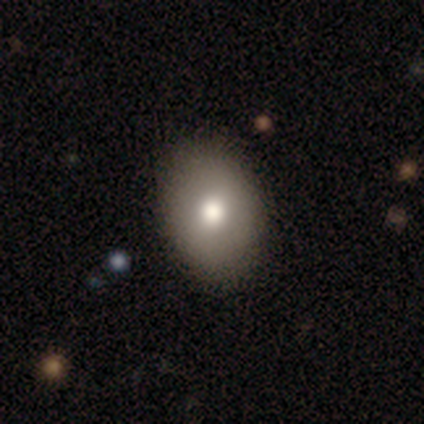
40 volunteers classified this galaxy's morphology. smooth-or-featured: smooth: 78% | featured or disk: 18% | star or artifact: 5%
  how-rounded: in between: 81% | round: 19% | cigar-shaped: 0%
  merging: none: 97% | minor disturbance: 3% | major disturbance: 0% | merger: 0%